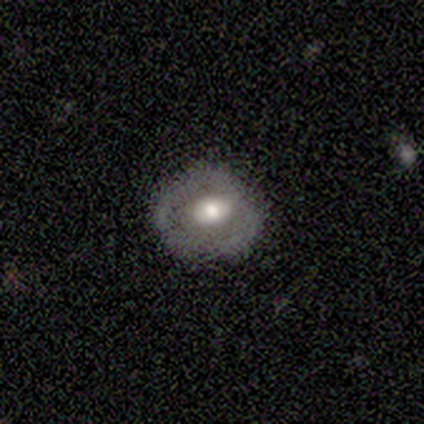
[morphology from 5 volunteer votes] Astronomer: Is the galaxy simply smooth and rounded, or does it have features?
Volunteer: featured or disk — 80%.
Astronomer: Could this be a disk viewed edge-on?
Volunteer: no — 100%.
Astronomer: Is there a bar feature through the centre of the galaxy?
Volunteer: no — 100%.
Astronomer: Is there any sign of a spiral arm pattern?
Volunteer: no — 100%.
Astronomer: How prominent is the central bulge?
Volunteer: moderate — 50%.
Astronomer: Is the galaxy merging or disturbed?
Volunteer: none — 100%.